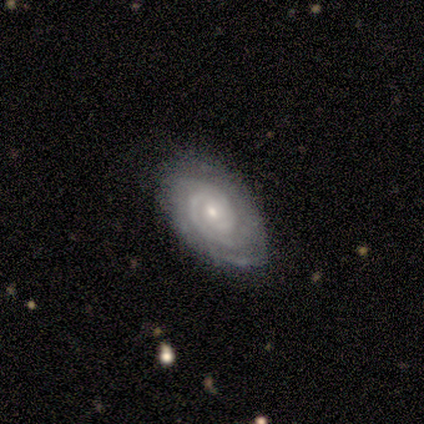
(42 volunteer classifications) Smooth or featured: featured or disk — 95% (smooth — 2%)
Edge-on disk: no — 100%
Bar: no — 85% (weak — 15%)
Spiral arms: yes — 100%
Spiral winding: tight — 85% (medium — 12%)
Spiral arm count: 2 — 38% (can't tell — 32%)
Bulge size: small — 68% (moderate — 25%)
Merging: none — 76% (minor disturbance — 20%)